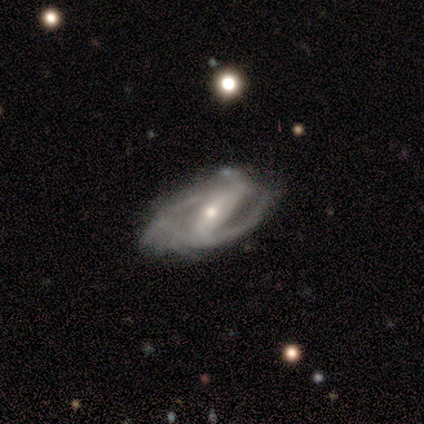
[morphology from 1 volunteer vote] This is clearly a featured or disk galaxy (100%). It is clearly not viewed edge-on (100%). Bar: clearly weak (100%). Spiral arm pattern: clearly yes (100%). Spiral arm count: clearly can't tell (100%). Spiral winding: clearly tight (100%). Central bulge: clearly small (100%). Merging: clearly none (100%).